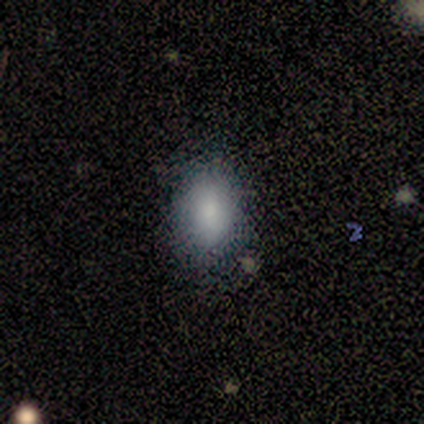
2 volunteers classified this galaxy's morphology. Overall: smooth (100%). How rounded: in between (100%). Merging: none (50%, tied with minor disturbance).